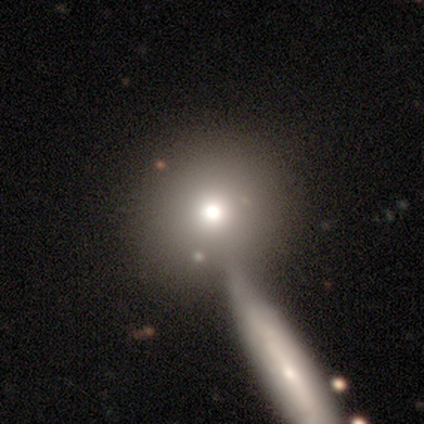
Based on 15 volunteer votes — smooth-or-featured: smooth: 60% | star or artifact: 27% | featured or disk: 13%
  how-rounded: round: 67% | in between: 22% | cigar-shaped: 11%
  merging: none: 45% | merger: 36% | minor disturbance: 18% | major disturbance: 0%